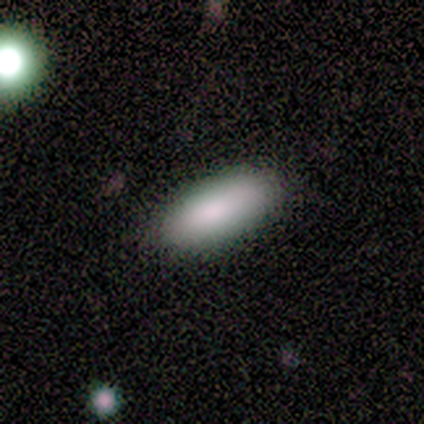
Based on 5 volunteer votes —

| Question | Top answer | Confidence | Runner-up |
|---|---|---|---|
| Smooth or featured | smooth | 80% | featured or disk (20%) |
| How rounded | in between | 75% | cigar-shaped (25%) |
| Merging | none | 100% | — |